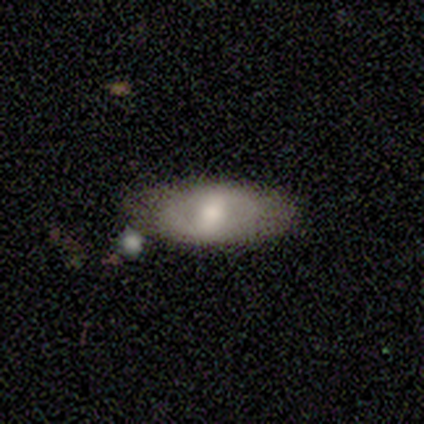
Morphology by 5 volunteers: smooth-or-featured: featured or disk: 80% | smooth: 20% | star or artifact: 0%
  disk-edge-on: no: 100% | yes: 0%
    bar: strong: 50% | weak: 25% | no: 25%
    has-spiral-arms: no: 100% | yes: 0%
    bulge-size: moderate: 50% (tied) | small: 50% (tied) | dominant: 0% | large: 0% | none: 0%
  merging: none: 60% | minor disturbance: 40% | major disturbance: 0% | merger: 0%